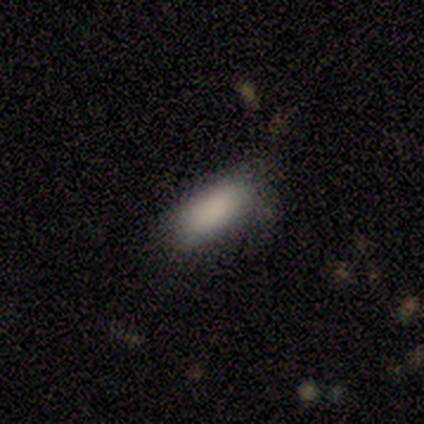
A smooth galaxy with no disk features (93%) that is in between round and cigar-shaped (92%). Merging: none (71%).